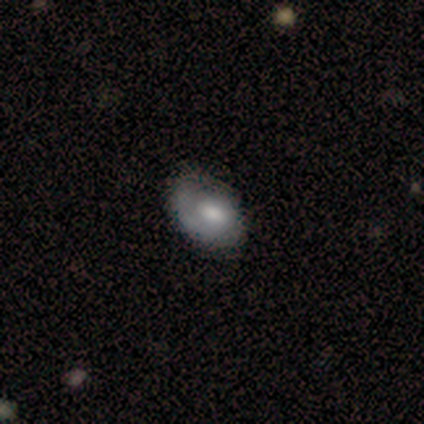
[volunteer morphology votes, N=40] smooth-or-featured: smooth: 50% | featured or disk: 48% | star or artifact: 2%
  how-rounded: in between: 90% | round: 10% | cigar-shaped: 0%
  merging: none: 41% | minor disturbance: 15% | major disturbance: 15% | merger: 3%